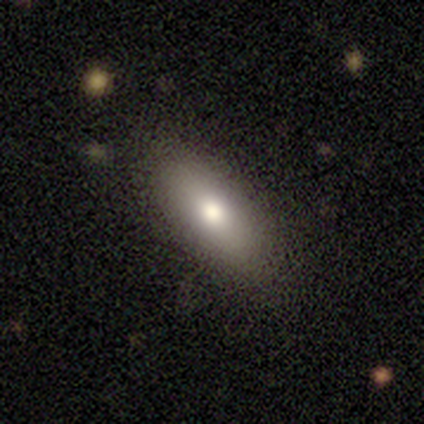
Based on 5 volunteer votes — Overall: smooth (60%; featured or disk 40%). How rounded: in between (100%). Merging: none (100%).